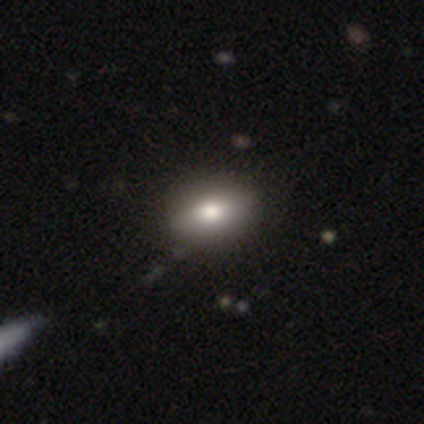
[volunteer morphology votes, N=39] Smooth or featured? 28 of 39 (72%) said smooth. How rounded? 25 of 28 (89%) said in between. Merging? 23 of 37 (62%) said none.